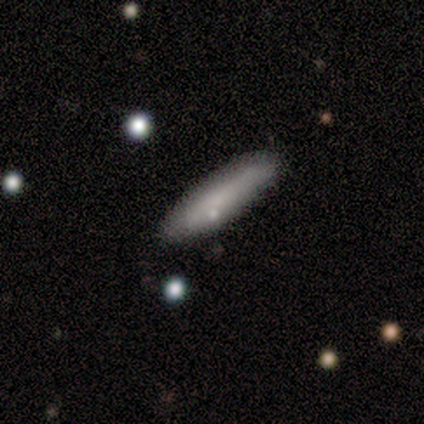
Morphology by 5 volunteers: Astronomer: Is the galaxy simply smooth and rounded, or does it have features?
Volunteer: smooth — 80%.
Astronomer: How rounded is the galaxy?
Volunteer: cigar-shaped — 100%.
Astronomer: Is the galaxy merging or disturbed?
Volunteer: none — 80%.